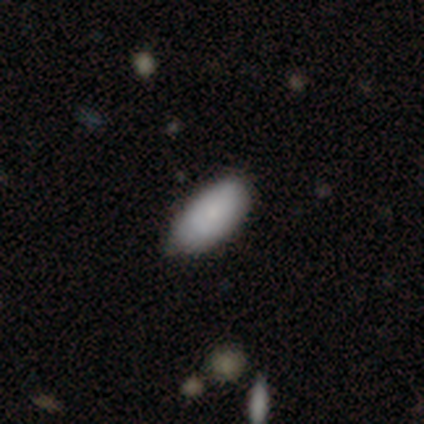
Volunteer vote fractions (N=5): Overall: smooth (80%). How rounded: in between (100%). Merging: none (50%, tied with minor disturbance).